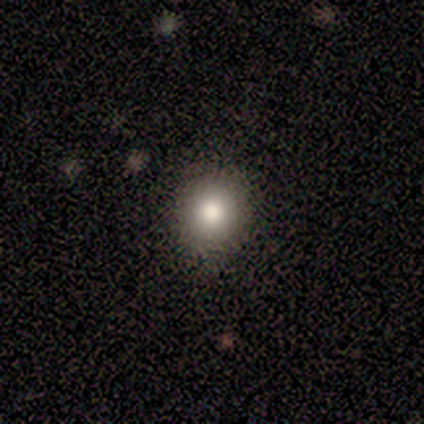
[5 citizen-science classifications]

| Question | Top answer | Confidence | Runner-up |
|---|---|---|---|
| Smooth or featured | smooth | 80% | featured or disk (20%) |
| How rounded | round | 75% | in between (25%) |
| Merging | none | 100% | — |